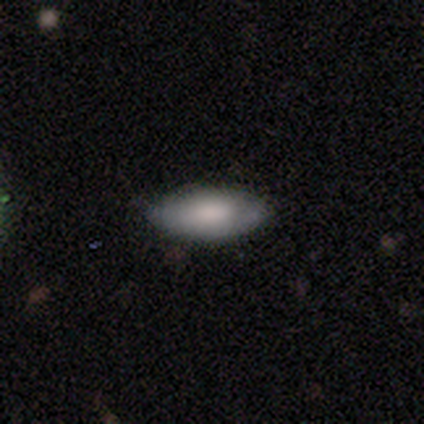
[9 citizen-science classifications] Smooth or featured? 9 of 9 (100%) said smooth. How rounded? 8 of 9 (89%) said in between. Merging? 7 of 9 (78%) said none.